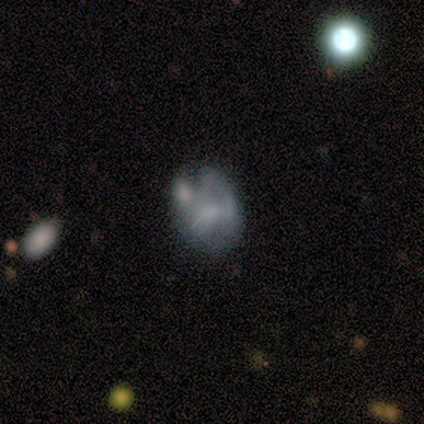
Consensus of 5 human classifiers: This appears to be a featured or disk galaxy (60%) with no bar (100%), no spiral arms (100%) and a moderate central bulge (33%, tied with small and none). Merging: none (40%).